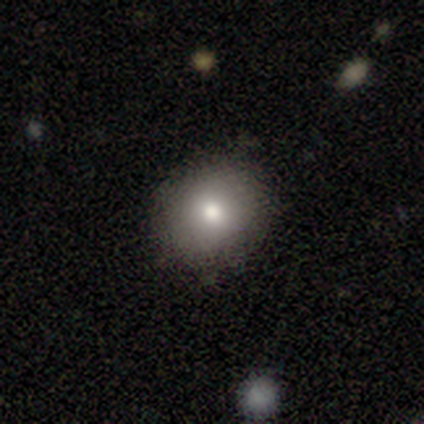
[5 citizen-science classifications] Q: Smooth or featured?
A: smooth (40%); tied with: featured or disk (40%)
Q: How rounded?
A: round (100%)
Q: Merging?
A: none (100%)